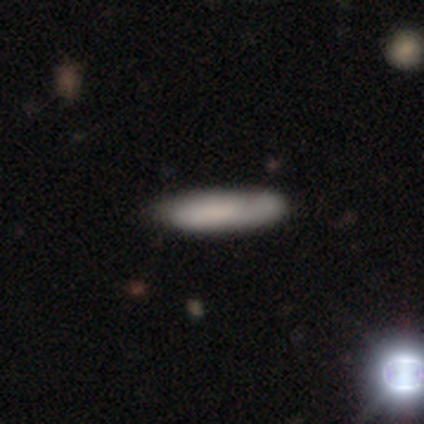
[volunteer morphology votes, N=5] type=smooth (40%, tied with star or artifact); roundness=in between (50%, tied with cigar-shaped); merging=none (67%).